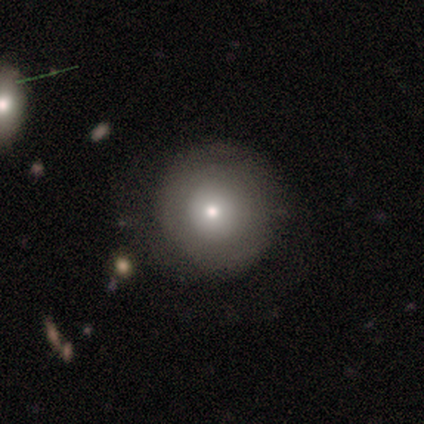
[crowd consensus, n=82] Smooth or featured? 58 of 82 (71%) said smooth. How rounded? 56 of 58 (97%) said round. Merging? 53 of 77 (69%) said none.